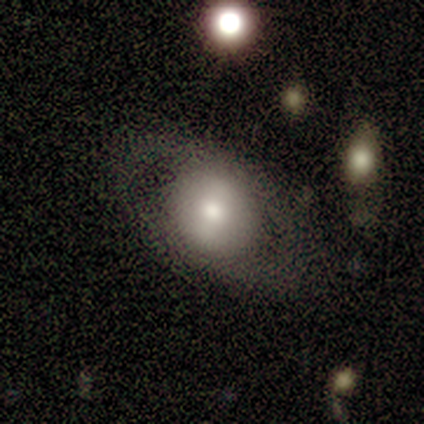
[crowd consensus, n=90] Smooth or featured: smooth — 51% (featured or disk — 44%)
How rounded: round — 54% (in between — 46%)
Merging: none — 73% (minor disturbance — 20%)